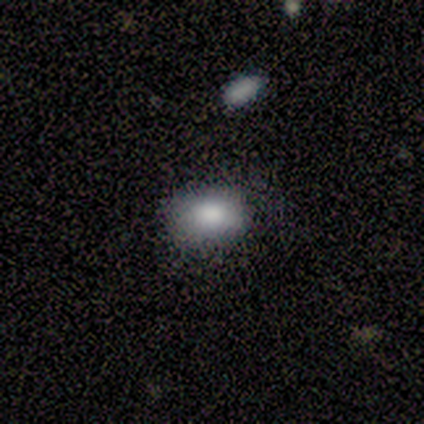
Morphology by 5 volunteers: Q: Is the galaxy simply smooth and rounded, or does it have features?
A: smooth — 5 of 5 (100%).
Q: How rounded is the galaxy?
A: in between — 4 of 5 (80%).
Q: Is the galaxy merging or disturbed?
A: none — 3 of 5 (60%).